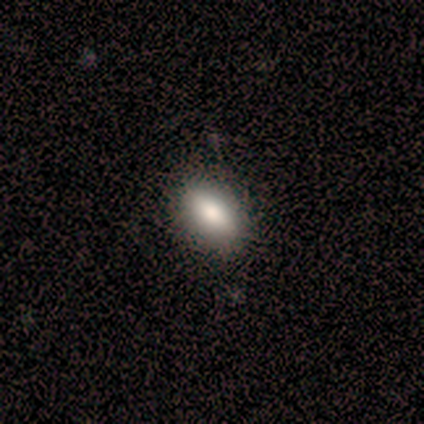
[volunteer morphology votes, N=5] Smooth or featured: smooth — 80% (star or artifact — 20%)
How rounded: in between — 100%
Merging: none — 100%